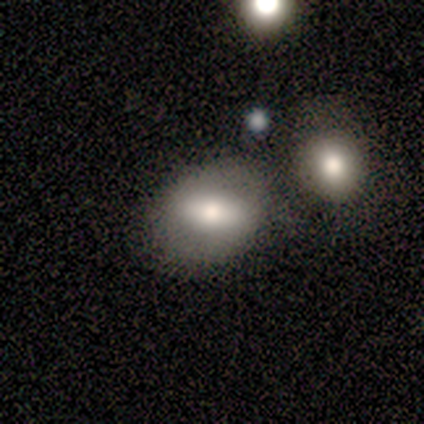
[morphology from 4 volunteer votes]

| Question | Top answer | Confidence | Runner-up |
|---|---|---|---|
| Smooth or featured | smooth | 50% | featured or disk (25%) |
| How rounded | in between | 100% | — |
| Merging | none | 100% | — |